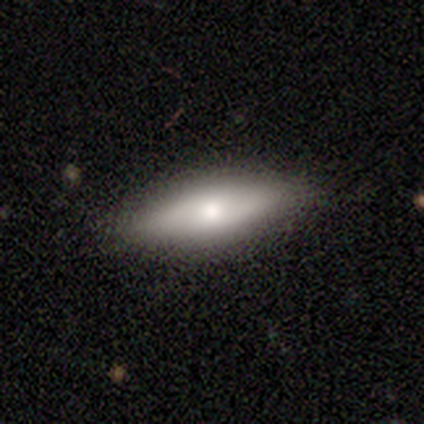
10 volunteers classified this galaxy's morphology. A smooth galaxy with no disk features (60%) that is in between round and cigar-shaped (67%).

Vote fractions:
- Smooth or featured? smooth: 60% / featured or disk: 30% / star or artifact: 10%
- How rounded? in between: 67% / cigar-shaped: 33% / round: 0%
- Merging? none: 89% / minor disturbance: 11% / major disturbance: 0% / merger: 0%